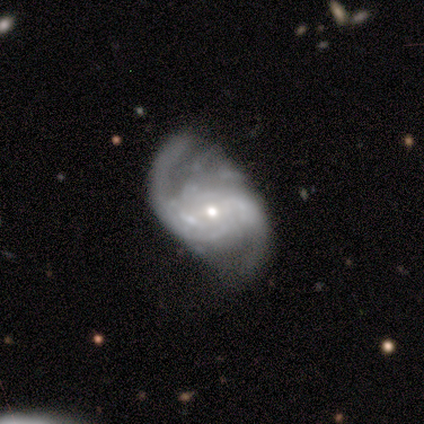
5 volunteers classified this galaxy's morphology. Volunteers were most divided on "bulge size" (2-way tie): moderate: 50%, small: 50%, dominant: 0%, large: 0%, none: 0%. More confident: edge-on disk — no (100%); spiral arms — yes (100%); smooth or featured — featured or disk (80%); bar — weak (50%); spiral winding — tight (50%); spiral arm count — 2 (50%); merging — none (50%).